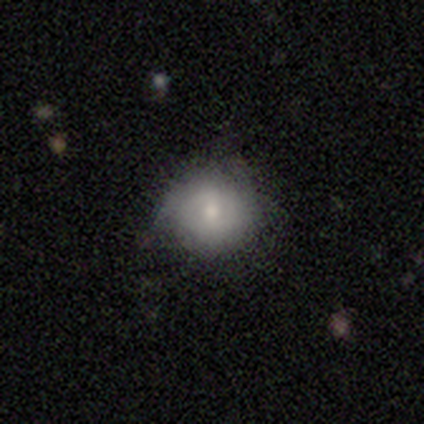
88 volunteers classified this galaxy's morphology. smooth_or_featured: smooth (p=0.81) [alt: featured or disk p=0.16]
how_rounded: round (p=0.86) [alt: in between p=0.14]
merging: none (p=0.73) [alt: minor disturbance p=0.22]